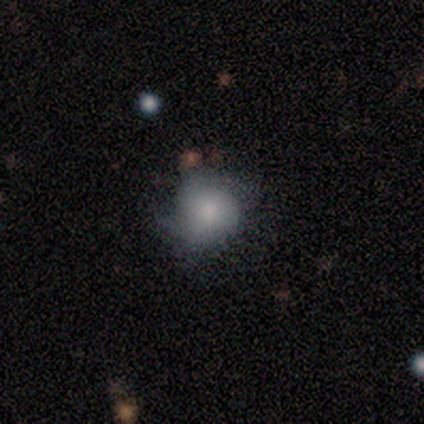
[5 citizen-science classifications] smooth-or-featured: featured or disk: 60% | smooth: 40% | star or artifact: 0%
  disk-edge-on: no: 100% | yes: 0%
    bar: strong: 33% (tied) | weak: 33% (tied) | no: 33% (tied)
    has-spiral-arms: yes: 100% | no: 0%
      spiral-winding: loose: 67% | medium: 33% | tight: 0%
      spiral-arm-count: 2: 67% | 1: 33% | 3: 0% | 4: 0% | more than 4: 0% | can't tell: 0%
    bulge-size: small: 100% | dominant: 0% | large: 0% | moderate: 0% | none: 0%
  merging: none: 40% (tied) | major disturbance: 40% (tied) | minor disturbance: 20% | merger: 0%